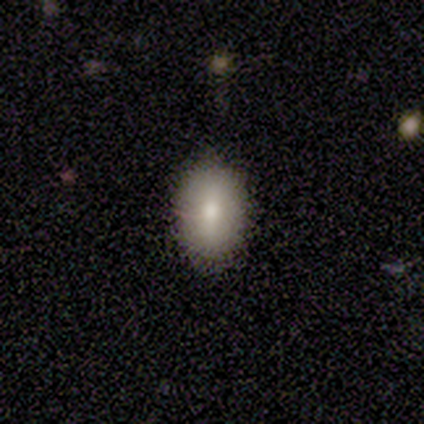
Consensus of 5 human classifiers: Volunteers were most divided on "smooth or featured": smooth: 80%, featured or disk: 20%, star or artifact: 0%. More confident: how rounded — in between (100%); merging — none (80%).